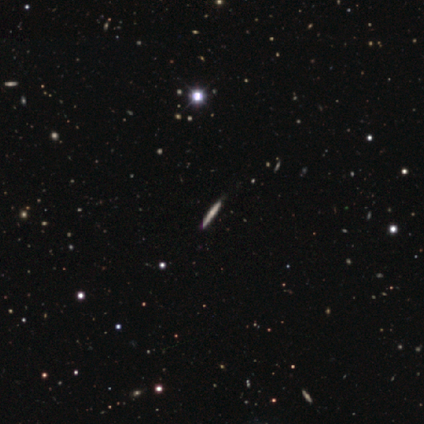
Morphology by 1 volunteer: type=featured or disk (100%); edge-on=yes (100%); edge-on bulge=none (100%); merging=minor disturbance (100%).